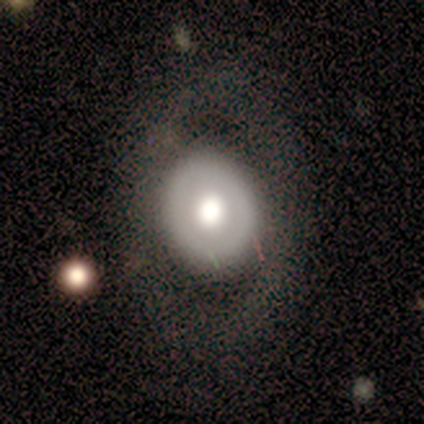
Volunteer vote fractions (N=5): featured or disk 60%, smooth 20%, star or artifact 20%. Down the decision tree: edge-on disk — no (100%); bar — no (100%); spiral arms — no (100%); bulge size — dominant (33%, tied with large and moderate); merging — none (50%, tied with minor disturbance).